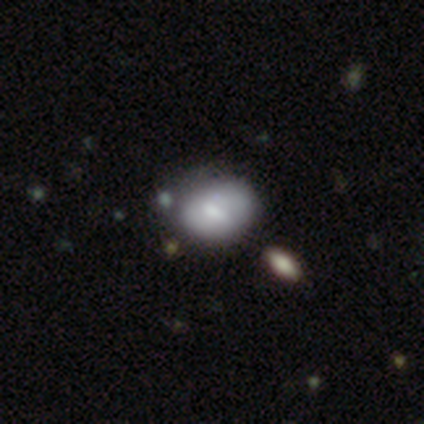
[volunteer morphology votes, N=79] Smooth or featured? smooth (57%)
How rounded? in between (53%)
Merging? none (33%)